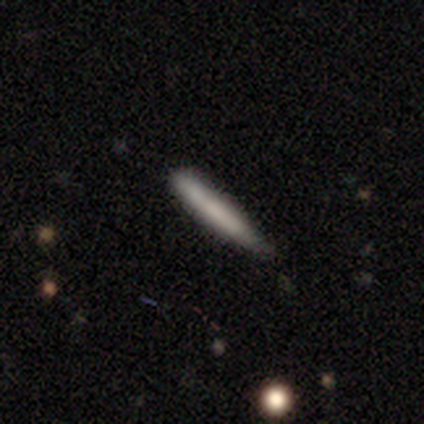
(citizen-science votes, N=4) smooth_or_featured: smooth (p=0.50) [alt: featured or disk p=0.25]
how_rounded: cigar-shaped (p=1.00)
merging: none (p=1.00)